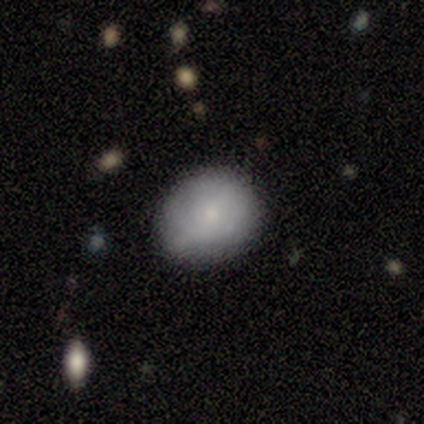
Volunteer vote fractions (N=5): Morphology: type=smooth (100%); roundness=round (80%); merging=none (80%).